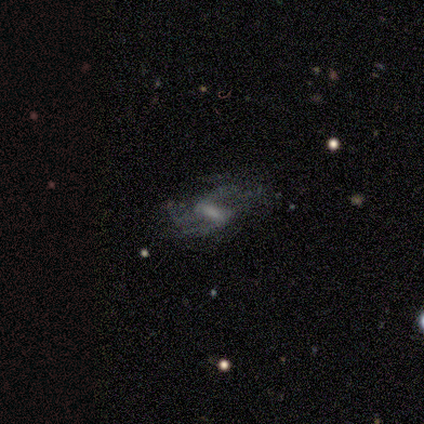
Morphology: type=featured or disk (80%); edge-on=no (100%); bar=strong (50%); spiral arms=yes (75%); winding=loose (67%); arm count=2 (100%); bulge=none (75%); merging=minor disturbance (50%).